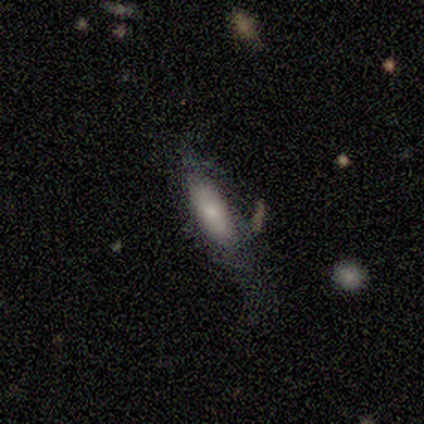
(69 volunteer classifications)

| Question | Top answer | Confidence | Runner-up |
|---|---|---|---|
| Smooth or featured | smooth | 70% | featured or disk (29%) |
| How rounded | in between | 69% | cigar-shaped (29%) |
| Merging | major disturbance | 37% | none (34%) |